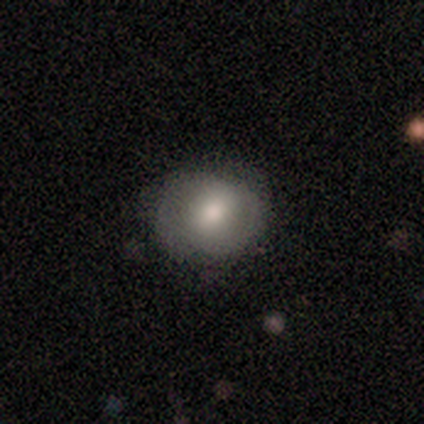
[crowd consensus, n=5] smooth-or-featured: smooth: 80% | featured or disk: 20% | star or artifact: 0%
  how-rounded: round: 75% | in between: 25% | cigar-shaped: 0%
  merging: none: 80% | major disturbance: 20% | minor disturbance: 0% | merger: 0%